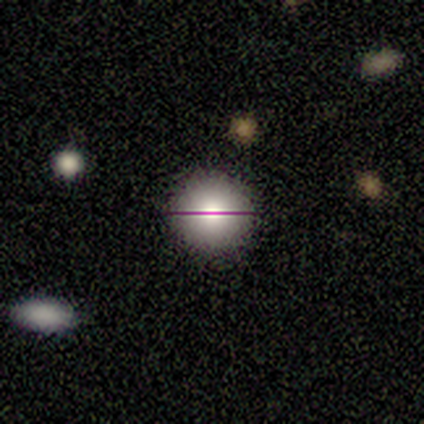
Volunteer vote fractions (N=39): This is likely a smooth galaxy (62%). How rounded: clearly round (100%). Merging: clearly none (93%).